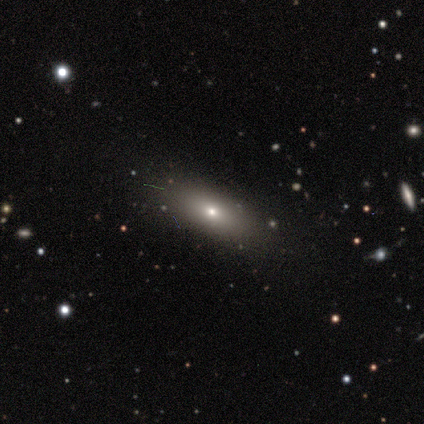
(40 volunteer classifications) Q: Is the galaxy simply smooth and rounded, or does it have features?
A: smooth — 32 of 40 (80%).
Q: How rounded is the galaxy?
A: in between — 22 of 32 (69%).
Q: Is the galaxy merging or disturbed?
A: none — 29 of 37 (78%).